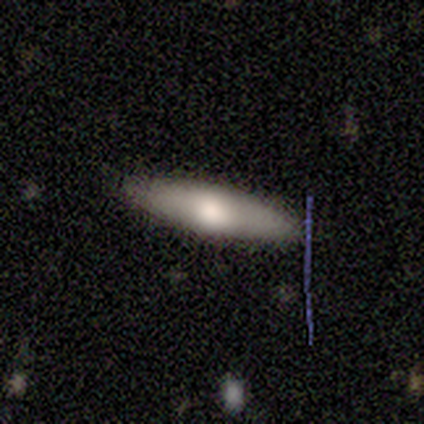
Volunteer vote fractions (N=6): This is clearly a smooth galaxy (83%). How rounded: clearly cigar-shaped (80%). Merging: clearly none (100%).